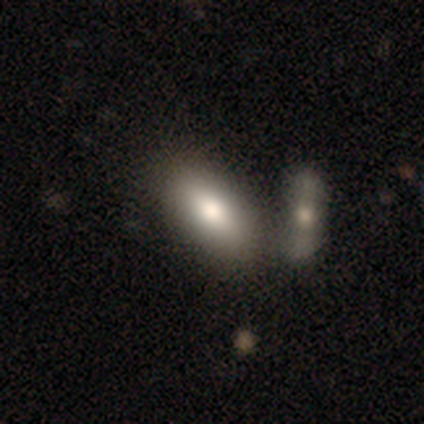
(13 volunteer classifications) Overall: smooth (77%). How rounded: in between (70%; cigar-shaped 30%). Merging: none (69%).